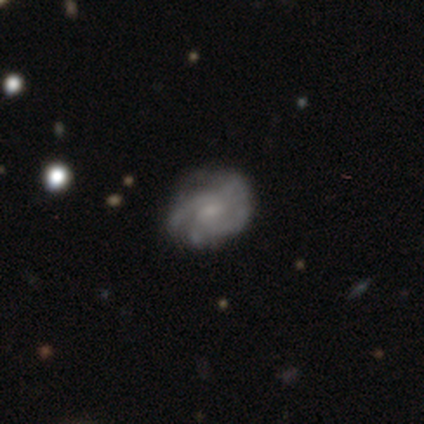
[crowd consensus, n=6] Overall: featured or disk (50%; star or artifact 33%). Edge-on disk: no (100%). Bar: no (67%; weak 33%). Spiral arms: yes (100%). Spiral arm count: 2 (33%, tied with 4 and can't tell). Spiral winding: tight (67%; medium 33%). Bulge size: small (67%; moderate 33%). Merging: none (50%, tied with minor disturbance).